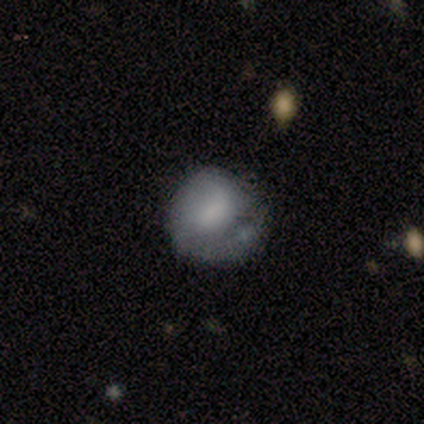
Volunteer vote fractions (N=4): A smooth galaxy with no disk features (100%) that is round (75%). Merging: none (75%).